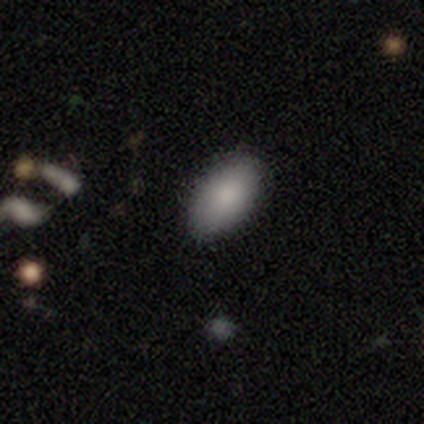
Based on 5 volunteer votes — A smooth galaxy with no disk features (40%, tied with featured or disk) that is in between round and cigar-shaped (100%).

Vote fractions:
- Smooth or featured? smooth: 40% (tied) / featured or disk: 40% (tied) / star or artifact: 20%
- How rounded? in between: 100% / round: 0% / cigar-shaped: 0%
- Merging? none: 75% / minor disturbance: 25% / major disturbance: 0% / merger: 0%